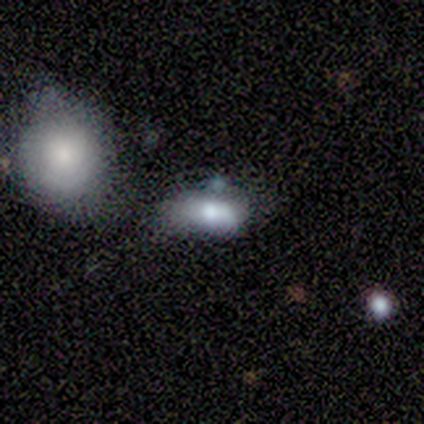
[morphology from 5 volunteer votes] A smooth galaxy with no disk features (60%) that is round (67%). Merging: major disturbance (50%).